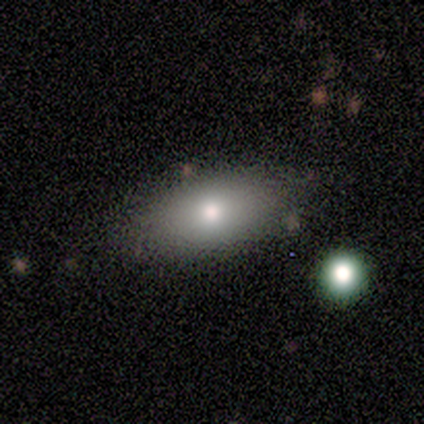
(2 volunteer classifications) Morphology: type=smooth (100%); roundness=in between (100%); merging=none (100%).